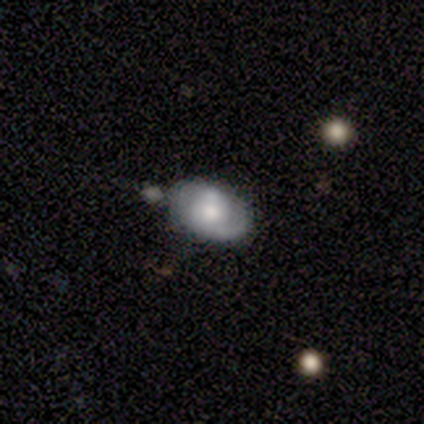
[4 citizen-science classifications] Q: Smooth or featured?
A: smooth (100%)
Q: How rounded?
A: in between (100%)
Q: Merging?
A: none (25%); tied with: minor disturbance (25%); major disturbance (25%); merger (25%)